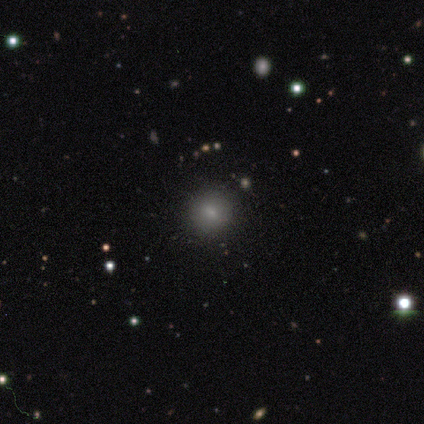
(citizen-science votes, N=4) Smooth or featured: smooth — 100%
How rounded: round — 75% (in between — 25%)
Merging: none — 100%